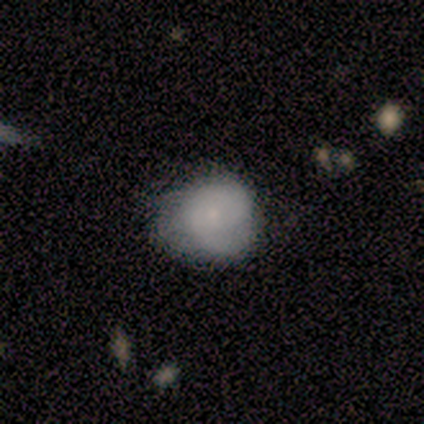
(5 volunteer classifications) Smooth or featured? 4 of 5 (80%) said smooth. How rounded? 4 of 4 (100%) said round. Merging? 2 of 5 (40%, tied with minor disturbance) said none.